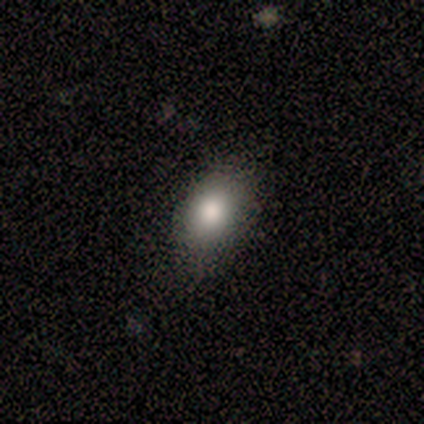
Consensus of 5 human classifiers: Smooth or featured? smooth (100%)
How rounded? in between (100%)
Merging? none (80%)